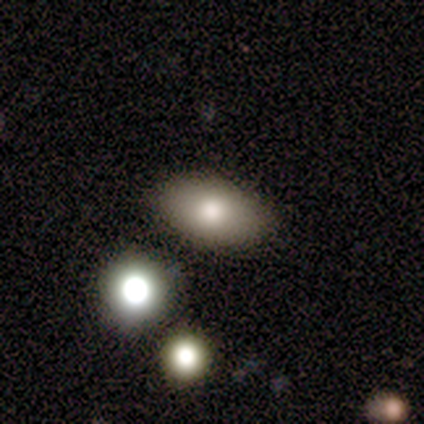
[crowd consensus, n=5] Smooth or featured: smooth — 100%
How rounded: in between — 100%
Merging: none — 100%